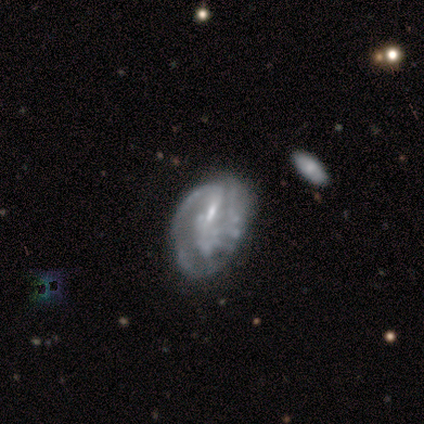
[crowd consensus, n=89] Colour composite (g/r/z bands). It shows a featured or disk galaxy (73%) with a weak bar (44%), 1 (35%, tied with 2) tight (42%) spiral arms (68%) and a small central bulge (48%). Merging: major disturbance (34%).